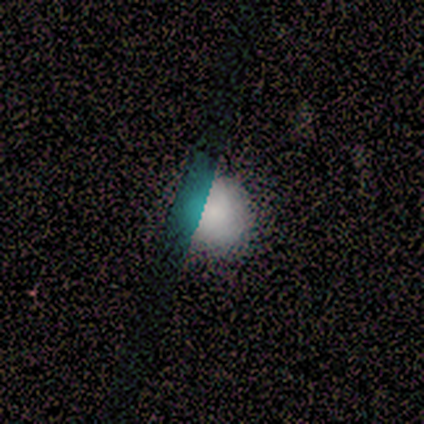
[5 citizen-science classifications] A smooth galaxy with no disk features (60%) that is round (100%). Merging: none (100%).